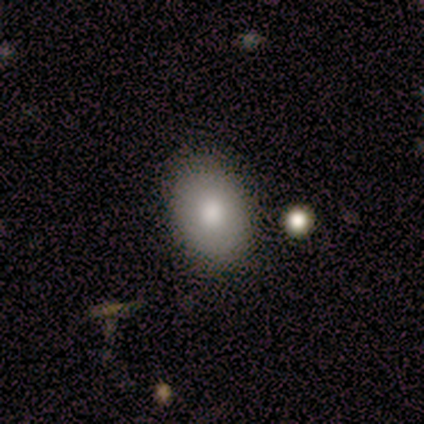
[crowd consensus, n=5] smooth 80%, featured or disk 20%, star or artifact 0%. Down the decision tree: how rounded — in between (100%); merging — none (100%).